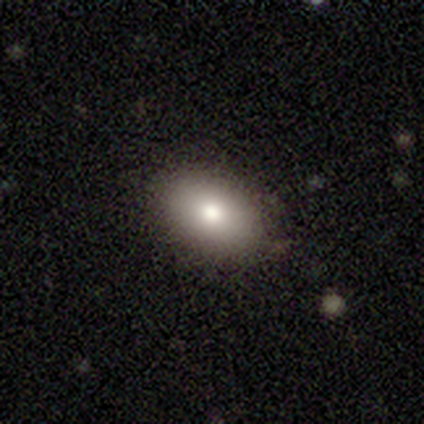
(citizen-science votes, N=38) smooth_or_featured: smooth (p=0.89) [alt: featured or disk p=0.05]
how_rounded: in between (p=0.88) [alt: round p=0.12]
merging: none (p=0.92) [alt: minor disturbance p=0.06]